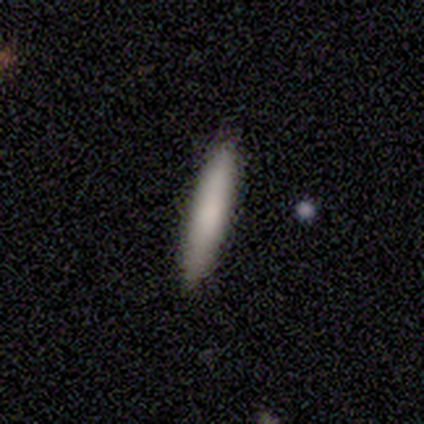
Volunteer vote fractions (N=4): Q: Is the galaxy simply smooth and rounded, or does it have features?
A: smooth — 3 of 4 (75%).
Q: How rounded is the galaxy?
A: cigar-shaped — 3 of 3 (100%).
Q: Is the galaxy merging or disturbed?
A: none — 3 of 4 (75%).